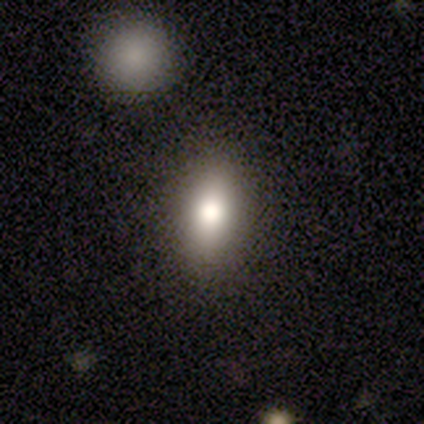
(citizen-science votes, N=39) smooth 62%, featured or disk 21%, star or artifact 18%. Down the decision tree: how rounded — in between (79%); merging — none (72%).